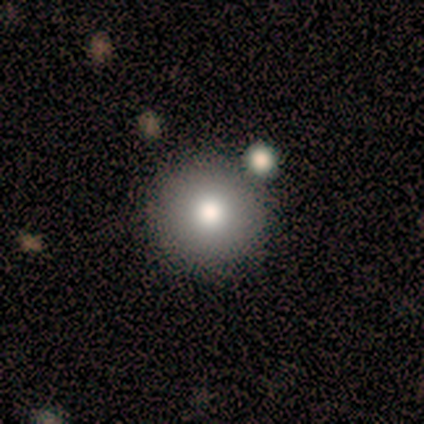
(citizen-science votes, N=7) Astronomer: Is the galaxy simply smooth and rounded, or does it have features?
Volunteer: smooth — 86%.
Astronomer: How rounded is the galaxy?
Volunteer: round — 100%.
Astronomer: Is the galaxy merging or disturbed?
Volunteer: none — 100%.